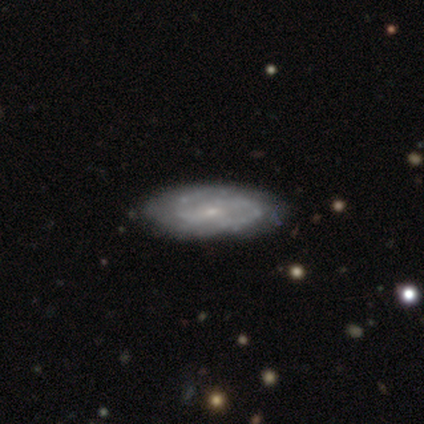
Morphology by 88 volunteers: A featured or disk galaxy (66%) with no bar (52%), 2 (67%) tight (45%) spiral arms (81%) and a small central bulge (79%).

Vote fractions:
- Smooth or featured? featured or disk: 66% / smooth: 31% / star or artifact: 3%
- Edge-on disk? no: 90% / yes: 10%
- Bar? no: 52% / weak: 40% / strong: 8%
- Spiral arms? yes: 81% / no: 19%
- Spiral winding? tight: 45% / medium: 40% / loose: 14%
- Spiral arm count? 2: 67% / can't tell: 24% / 3: 10% / 1: 0% / 4: 0% / more than 4: 0%
- Bulge size? small: 79% / moderate: 19% / none: 2% / dominant: 0% / large: 0%
- Merging? none: 74% / minor disturbance: 21% / major disturbance: 5% / merger: 0%